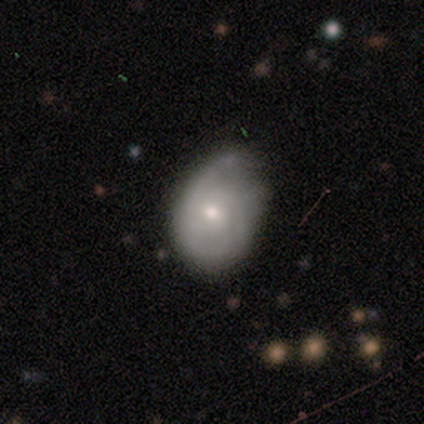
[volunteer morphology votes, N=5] smooth_or_featured: smooth (p=0.60) [alt: featured or disk p=0.40]
how_rounded: in between (p=0.67) [alt: round p=0.33]
merging: none (p=0.80) [alt: minor disturbance p=0.20]